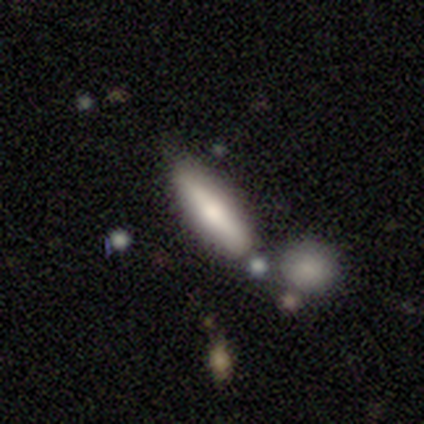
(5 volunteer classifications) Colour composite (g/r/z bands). It shows a smooth galaxy with no disk features (80%) that is cigar-shaped (75%). Merging: none (80%).